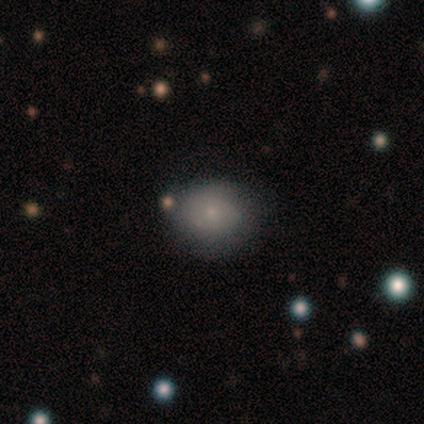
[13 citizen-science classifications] A smooth galaxy with no disk features (69%) that is round (78%).

Vote fractions:
- Smooth or featured? smooth: 69% / featured or disk: 23% / star or artifact: 8%
- How rounded? round: 78% / in between: 22% / cigar-shaped: 0%
- Merging? none: 92% / minor disturbance: 8% / major disturbance: 0% / merger: 0%